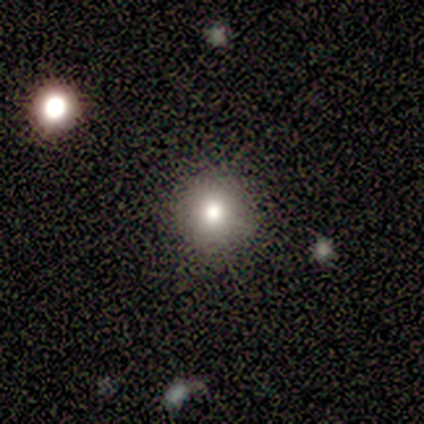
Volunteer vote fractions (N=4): smooth 75%, featured or disk 25%, star or artifact 0%. Down the decision tree: how rounded — round (100%); merging — none (100%).